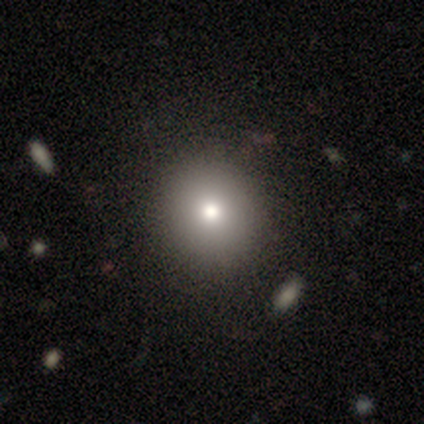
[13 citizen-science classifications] A smooth galaxy with no disk features (69%) that is round (100%).

Vote fractions:
- Smooth or featured? smooth: 69% / star or artifact: 23% / featured or disk: 8%
- How rounded? round: 100% / in between: 0% / cigar-shaped: 0%
- Merging? none: 100% / minor disturbance: 0% / major disturbance: 0% / merger: 0%